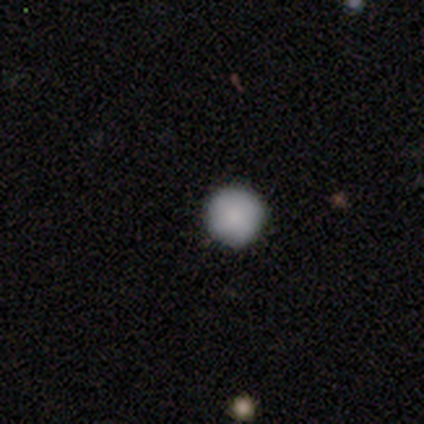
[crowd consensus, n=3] This appears to be a smooth galaxy with no disk features (100%) that is round (100%). Merging: none (100%).